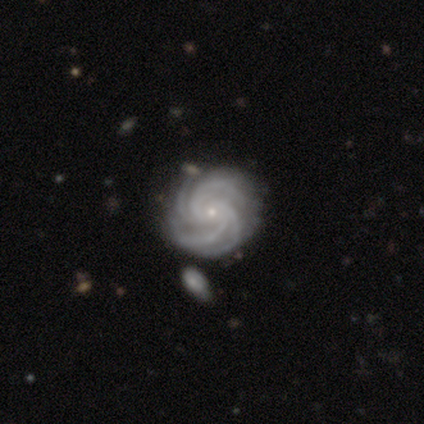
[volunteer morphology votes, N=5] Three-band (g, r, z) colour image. It shows a featured or disk galaxy (100%) with no bar (100%), more than 4 (60%) tight (80%) spiral arms (100%) and a small central bulge (100%). Merging: none (100%).